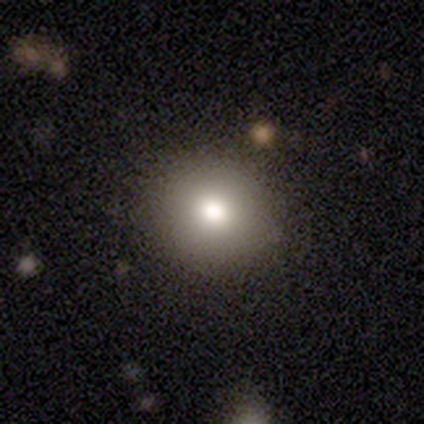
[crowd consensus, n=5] smooth-or-featured: smooth: 40% (tied) | featured or disk: 40% (tied) | star or artifact: 20%
  how-rounded: round: 100% | in between: 0% | cigar-shaped: 0%
  merging: none: 50% | minor disturbance: 25% | merger: 25% | major disturbance: 0%